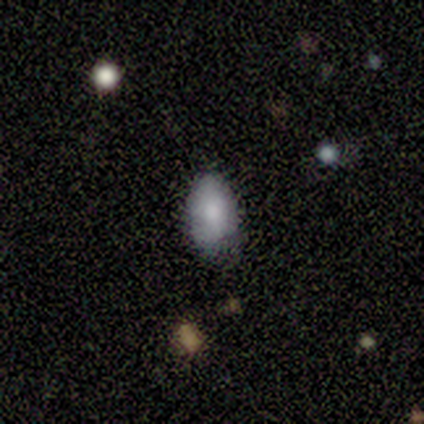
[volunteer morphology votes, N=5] A smooth galaxy with no disk features (80%) that is in between round and cigar-shaped (50%). Merging: none (75%).